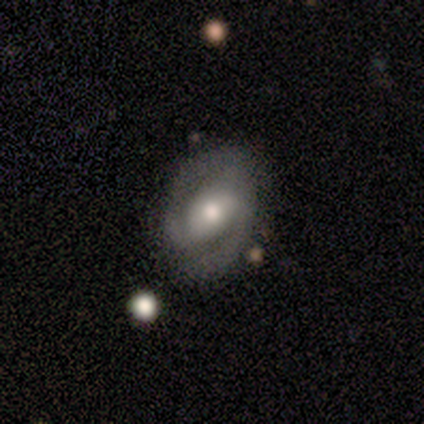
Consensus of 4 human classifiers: featured or disk 100%, smooth 0%, star or artifact 0%. Down the decision tree: edge-on disk — no (100%); bar — no (50%); spiral arms — yes (100%); spiral arm count — 2 (50%); spiral winding — medium (50%); bulge size — moderate (100%); merging — none (100%).